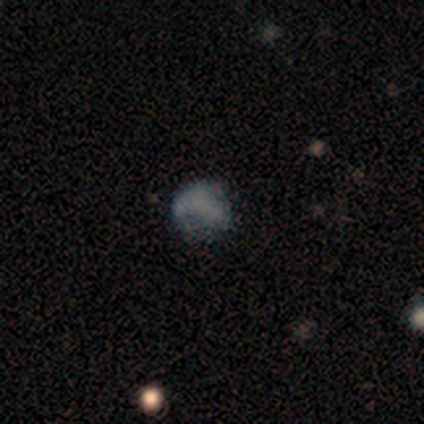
Q: Smooth or featured?
A: smooth (40%); tied with: star or artifact (40%)
Q: How rounded?
A: in between (100%)
Q: Merging?
A: none (67%); runner-up: minor disturbance (33%)